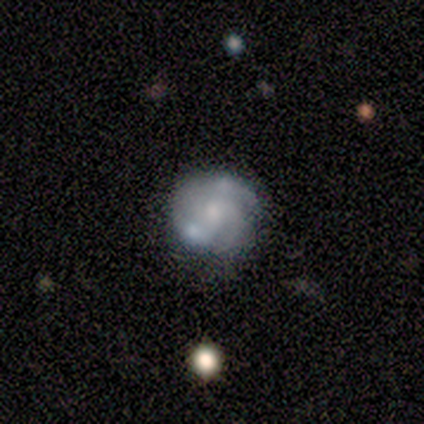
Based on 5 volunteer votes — A featured or disk galaxy (60%) with no bar (67%), 2 (33%, tied with 3 and can't tell) tight (67%) spiral arms (100%) and a large central bulge (33%, tied with moderate and small). Merging: none (100%).